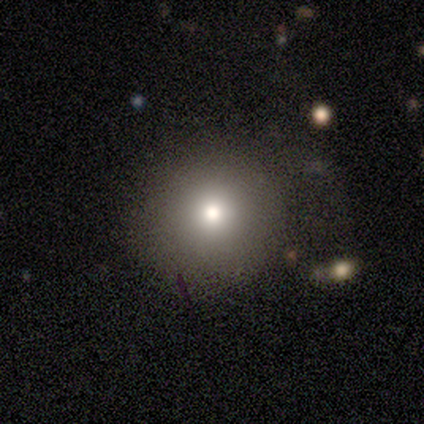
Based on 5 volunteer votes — A smooth galaxy with no disk features (80%) that is round (100%). Merging: none (50%).